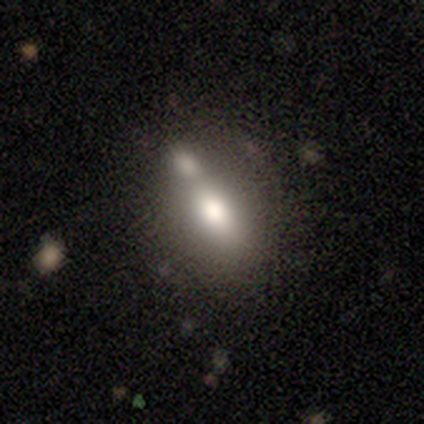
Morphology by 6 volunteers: Smooth or featured: smooth — 50% (star or artifact — 33%)
How rounded: in between — 100%
Merging: none — 50% (minor disturbance — 25%)